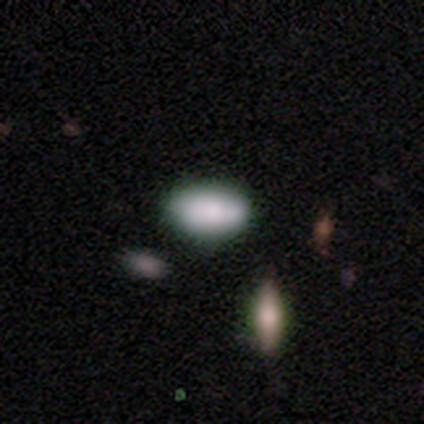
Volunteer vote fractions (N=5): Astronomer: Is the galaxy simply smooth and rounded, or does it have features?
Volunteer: smooth — 100%.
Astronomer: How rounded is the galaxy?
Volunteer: in between — 100%.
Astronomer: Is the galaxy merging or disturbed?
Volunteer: none — 100%.